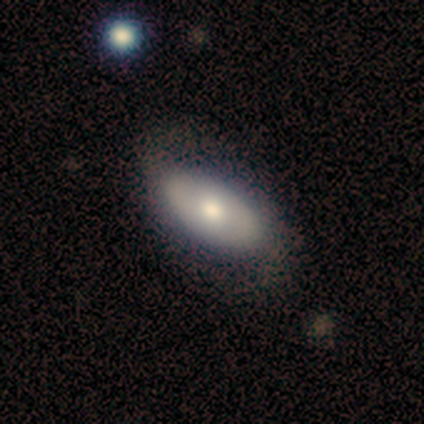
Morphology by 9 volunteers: Smooth or featured? 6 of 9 (67%) said smooth. How rounded? 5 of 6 (83%) said in between. Merging? 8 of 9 (89%) said none.